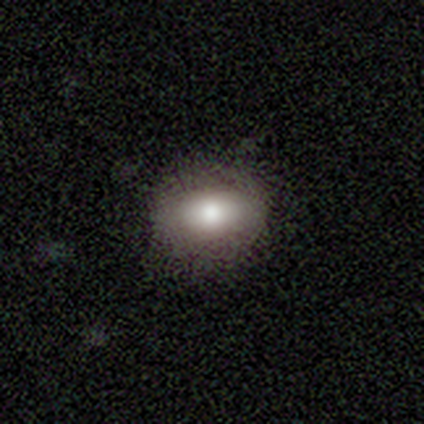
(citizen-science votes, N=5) Smooth or featured? smooth (100%)
How rounded? in between (80%)
Merging? none (100%)